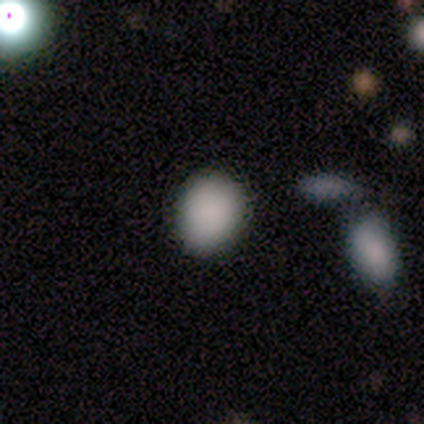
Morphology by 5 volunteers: Smooth or featured?
  - smooth: 100% *
  - featured or disk: 0%
  - star or artifact: 0%
How rounded?
  - round: 80% *
  - in between: 20%
  - cigar-shaped: 0%
Merging?
  - none: 80% *
  - minor disturbance: 20%
  - major disturbance: 0%
  - merger: 0%